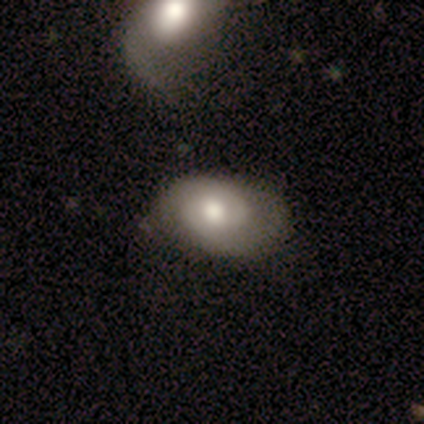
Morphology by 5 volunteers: Smooth or featured? smooth (80%)
How rounded? in between (100%)
Merging? major disturbance (60%)